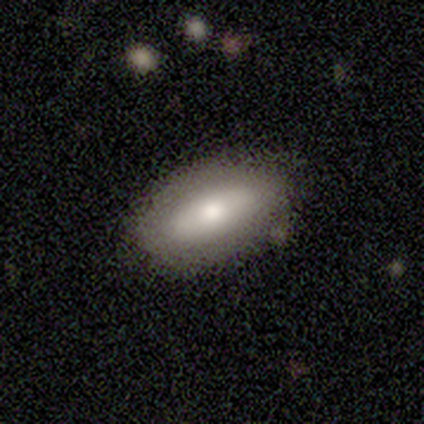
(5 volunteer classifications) Q: Smooth or featured?
A: smooth (60%); runner-up: featured or disk (20%)
Q: How rounded?
A: in between (100%)
Q: Merging?
A: none (100%)